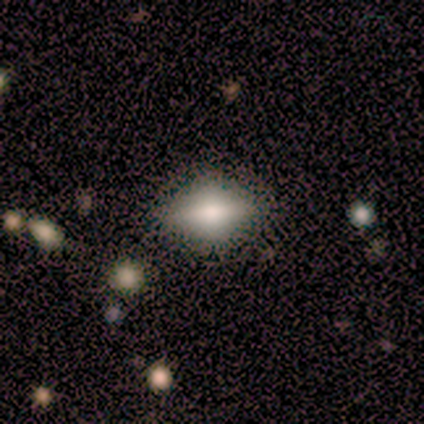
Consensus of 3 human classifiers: This is likely a smooth galaxy (67%). How rounded: clearly in between (100%). Merging: clearly minor disturbance (100%).